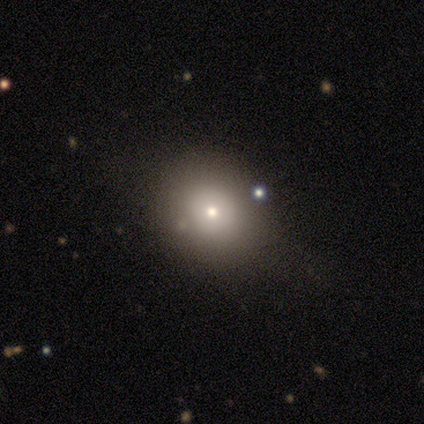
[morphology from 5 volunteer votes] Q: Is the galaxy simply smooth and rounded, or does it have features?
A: smooth — 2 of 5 (40%, tied with featured or disk).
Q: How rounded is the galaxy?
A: round — 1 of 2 (50%, tied with in between).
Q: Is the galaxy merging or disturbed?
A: none — 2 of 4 (50%, tied with merger).